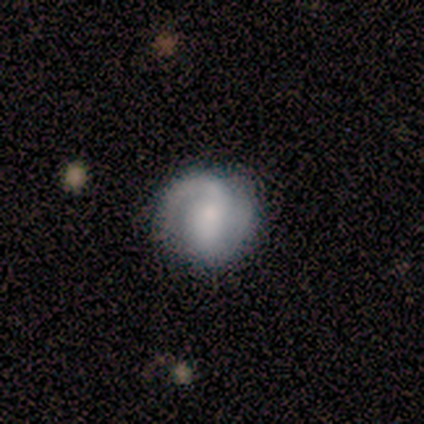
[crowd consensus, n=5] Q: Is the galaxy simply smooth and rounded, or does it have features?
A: smooth — 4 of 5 (80%).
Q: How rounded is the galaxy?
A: round — 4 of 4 (100%).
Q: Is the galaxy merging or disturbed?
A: none — 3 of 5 (60%).